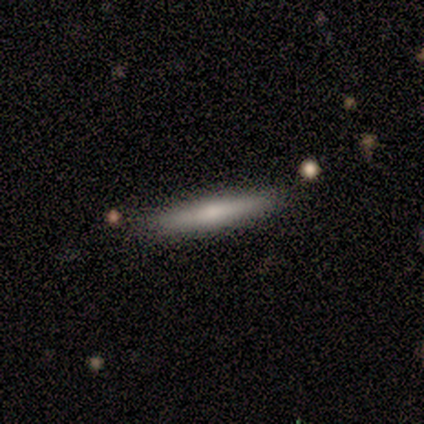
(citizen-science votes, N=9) Volunteers were most divided on "smooth or featured": smooth: 56%, featured or disk: 44%, star or artifact: 0%. More confident: how rounded — cigar-shaped (80%); merging — none (78%).